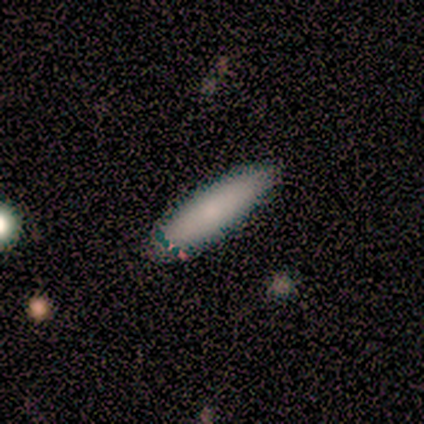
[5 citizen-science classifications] Smooth or featured: smooth — 80% (featured or disk — 20%)
How rounded: cigar-shaped — 75% (in between — 25%)
Merging: none — 80% (minor disturbance — 20%)